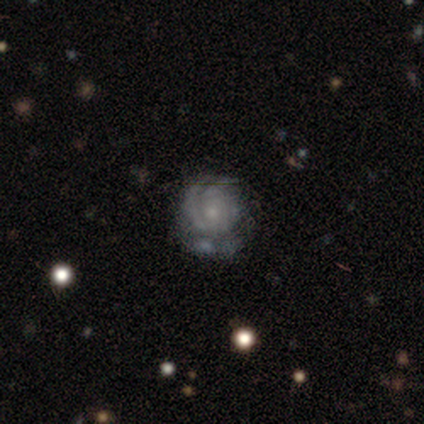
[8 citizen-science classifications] Q: Smooth or featured?
A: featured or disk (100%)
Q: Edge-on disk?
A: no (88%); runner-up: yes (12%)
Q: Bar?
A: no (86%); runner-up: weak (14%)
Q: Spiral arms?
A: yes (86%); runner-up: no (14%)
Q: Spiral winding?
A: tight (67%); runner-up: medium (33%)
Q: Spiral arm count?
A: can't tell (67%); runner-up: 2 (17%)
Q: Bulge size?
A: small (71%); runner-up: moderate (29%)
Q: Merging?
A: minor disturbance (50%); runner-up: none (38%)